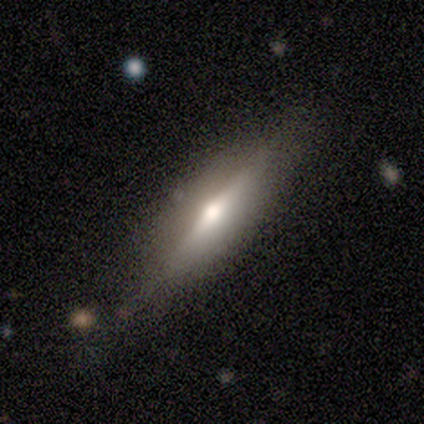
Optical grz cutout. It shows a smooth galaxy with no disk features (50%, tied with featured or disk) that is round (50%, tied with cigar-shaped). Merging: none (50%).